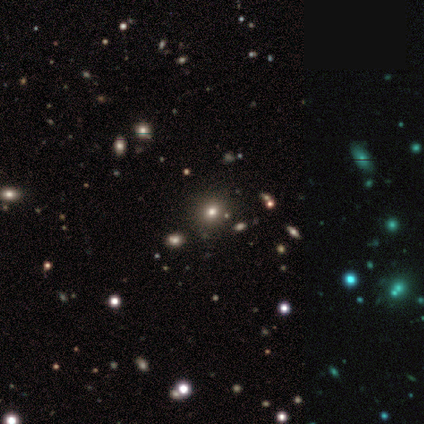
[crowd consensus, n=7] smooth-or-featured: smooth: 57% | star or artifact: 43% | featured or disk: 0%
  how-rounded: round: 100% | in between: 0% | cigar-shaped: 0%
  merging: none: 100% | minor disturbance: 0% | major disturbance: 0% | merger: 0%